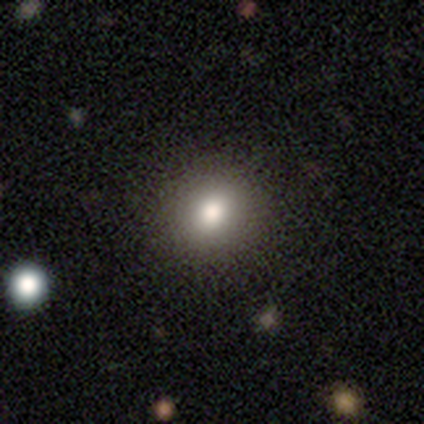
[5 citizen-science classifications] Morphology: type=smooth (100%); roundness=round (80%); merging=none (100%).